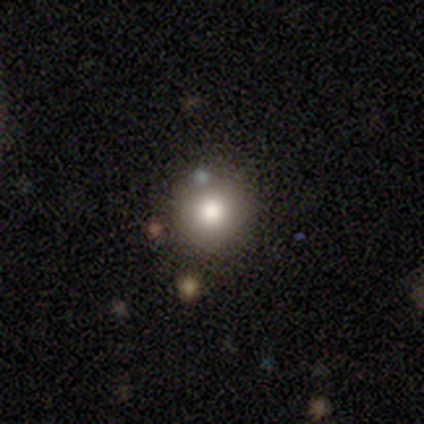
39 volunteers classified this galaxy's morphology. Smooth or featured? smooth (79%)
How rounded? round (97%)
Merging? none (89%)